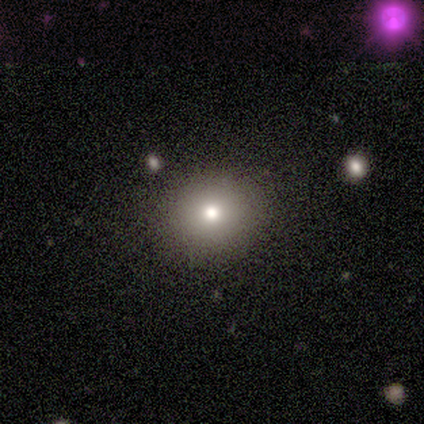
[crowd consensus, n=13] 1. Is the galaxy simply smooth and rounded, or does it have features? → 77% smooth, 23% featured or disk, 0% star or artifact.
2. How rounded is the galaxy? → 70% round, 30% in between, 0% cigar-shaped.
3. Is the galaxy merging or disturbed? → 100% none, 0% minor disturbance, 0% major disturbance, 0% merger.